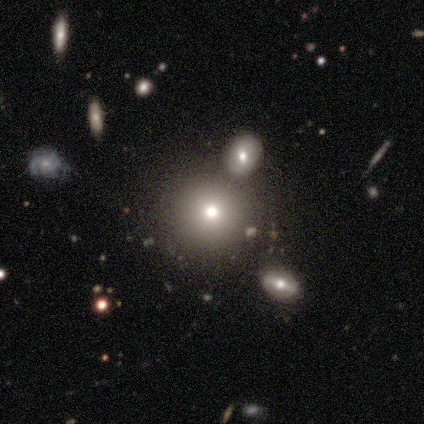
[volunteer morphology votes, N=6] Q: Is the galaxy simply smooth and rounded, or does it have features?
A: smooth — 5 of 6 (83%).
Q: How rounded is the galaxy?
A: round — 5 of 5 (100%).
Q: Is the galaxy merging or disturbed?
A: none — 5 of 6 (83%).